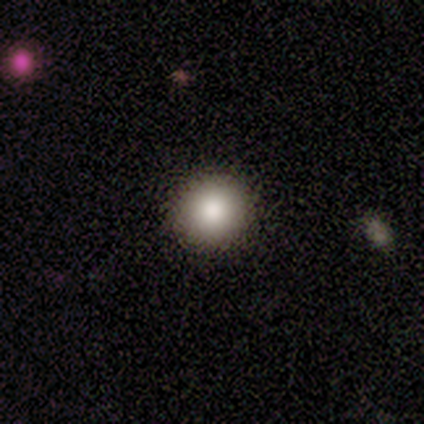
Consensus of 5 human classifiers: Morphology: type=smooth (100%); roundness=round (100%); merging=none (100%).